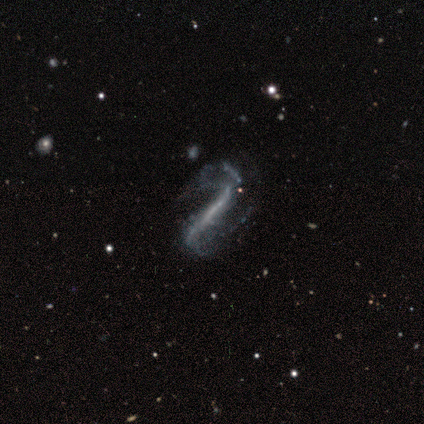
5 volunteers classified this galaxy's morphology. smooth_or_featured: featured or disk (p=1.00)
disk_edge_on: no (p=0.60) [alt: yes p=0.40]
bar: strong (p=1.00)
has_spiral_arms: yes (p=1.00)
spiral_winding: loose (p=1.00)
spiral_arm_count: 2 (p=1.00)
bulge_size: none (p=1.00)
merging: none (p=0.40) [tied with: minor disturbance p=0.40]